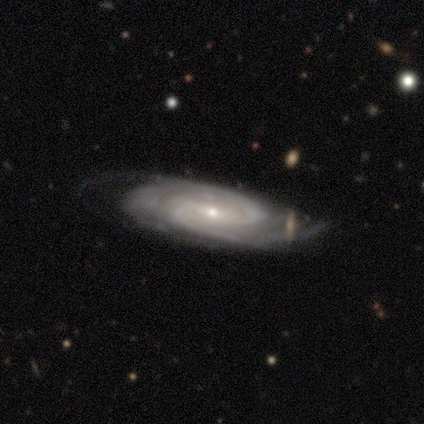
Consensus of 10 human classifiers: This appears to be a featured or disk galaxy (80%) with a weak bar (71%), 2 (43%) medium (57%) spiral arms (100%) and a small central bulge (57%). Merging: none (67%).